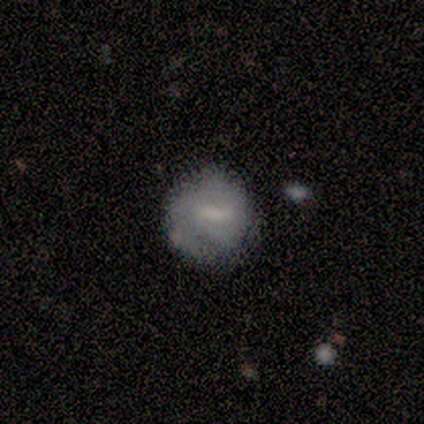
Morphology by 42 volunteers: Smooth or featured?
  - smooth: 48% * (tied)
  - featured or disk: 48% * (tied)
  - star or artifact: 5%
How rounded?
  - round: 90% *
  - in between: 10%
  - cigar-shaped: 0%
Merging?
  - none: 60% *
  - minor disturbance: 30%
  - major disturbance: 10%
  - merger: 0%